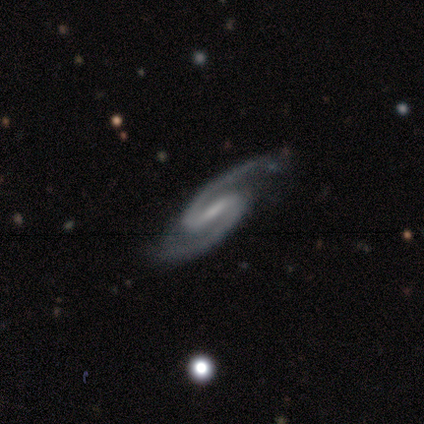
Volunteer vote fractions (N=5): smooth-or-featured: featured or disk: 100% | smooth: 0% | star or artifact: 0%
  disk-edge-on: no: 100% | yes: 0%
    bar: weak: 80% | strong: 20% | no: 0%
    has-spiral-arms: yes: 100% | no: 0%
      spiral-winding: medium: 80% | tight: 20% | loose: 0%
      spiral-arm-count: 2: 100% | 1: 0% | 3: 0% | 4: 0% | more than 4: 0% | can't tell: 0%
    bulge-size: small: 80% | none: 20% | dominant: 0% | large: 0% | moderate: 0%
  merging: none: 100% | minor disturbance: 0% | major disturbance: 0% | merger: 0%